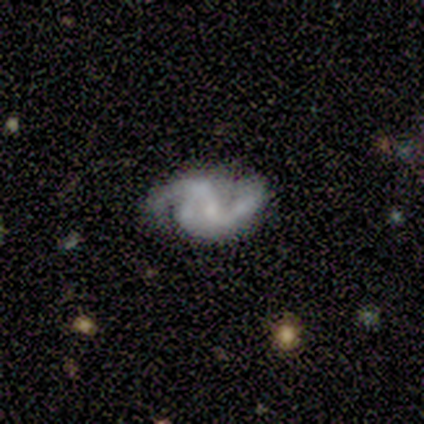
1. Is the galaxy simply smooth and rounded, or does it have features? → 100% featured or disk, 0% smooth, 0% star or artifact.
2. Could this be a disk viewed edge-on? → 100% no, 0% yes.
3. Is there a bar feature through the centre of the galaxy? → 80% no, 20% strong, 0% weak.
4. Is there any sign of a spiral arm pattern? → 100% yes, 0% no.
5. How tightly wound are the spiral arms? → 100% medium, 0% tight, 0% loose.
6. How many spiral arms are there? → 40% 2 (tied), 40% can't tell (tied), 20% 3, 0% 1, 0% 4, 0% more than 4.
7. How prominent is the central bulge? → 60% small, 20% moderate, 20% none, 0% dominant, 0% large.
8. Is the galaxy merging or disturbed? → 40% none (tied), 40% minor disturbance (tied), 20% merger, 0% major disturbance.